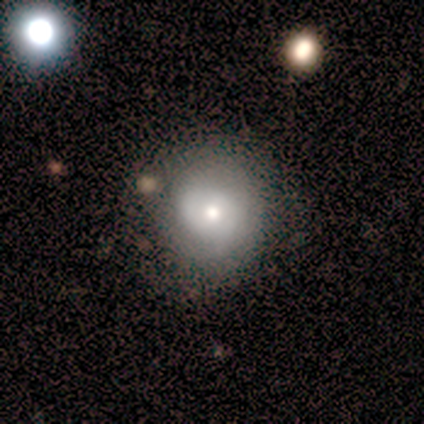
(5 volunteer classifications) Q: Smooth or featured?
A: smooth (60%); runner-up: featured or disk (40%)
Q: How rounded?
A: round (100%)
Q: Merging?
A: none (60%); runner-up: minor disturbance (40%)